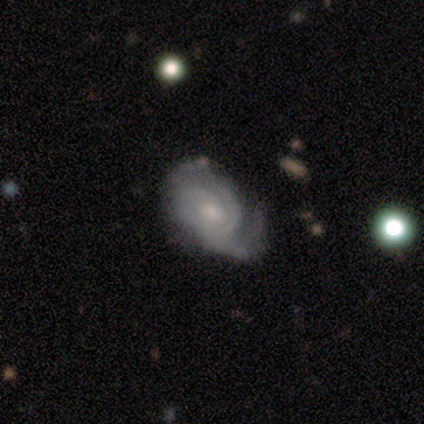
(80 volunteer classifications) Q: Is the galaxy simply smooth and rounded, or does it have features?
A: featured or disk — 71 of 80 (89%).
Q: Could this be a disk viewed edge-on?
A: no — 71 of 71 (100%).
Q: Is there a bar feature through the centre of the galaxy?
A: no — 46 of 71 (65%).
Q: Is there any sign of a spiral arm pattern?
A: yes — 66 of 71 (93%).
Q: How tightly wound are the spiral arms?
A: tight — 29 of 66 (44%).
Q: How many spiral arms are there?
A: can't tell — 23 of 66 (35%).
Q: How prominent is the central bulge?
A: small — 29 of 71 (41%).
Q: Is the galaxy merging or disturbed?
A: none — 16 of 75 (21%).